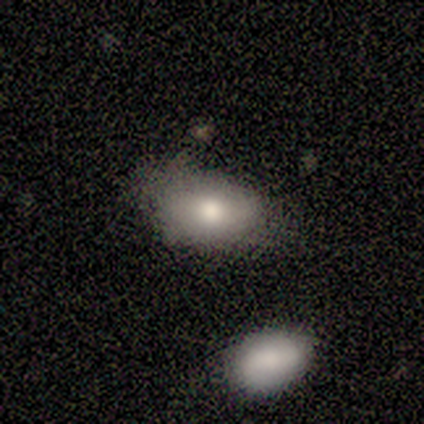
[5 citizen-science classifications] Volunteers were most divided on "merging": none: 60%, minor disturbance: 40%, major disturbance: 0%, merger: 0%. More confident: smooth or featured — smooth (100%); how rounded — in between (100%).